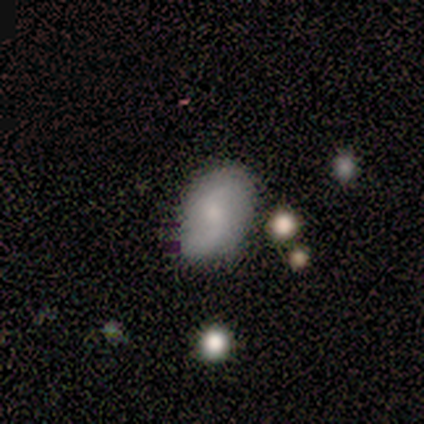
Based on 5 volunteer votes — A featured or disk galaxy (60%) with a weak bar (67%), 2 (100%) loose (100%) spiral arms (100%) and a small central bulge (100%). Merging: none (80%).